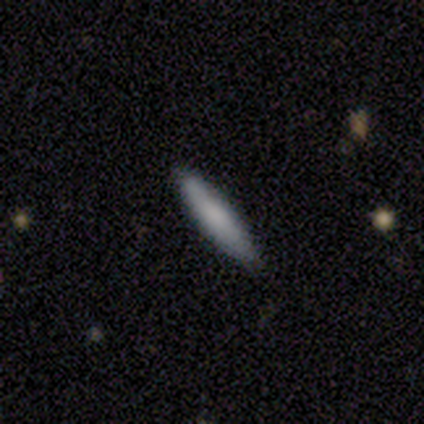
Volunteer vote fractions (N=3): Volunteers were most divided on "merging" (2-way tie): none: 50%, minor disturbance: 50%, major disturbance: 0%, merger: 0%. More confident: how rounded — cigar-shaped (100%); smooth or featured — smooth (67%).